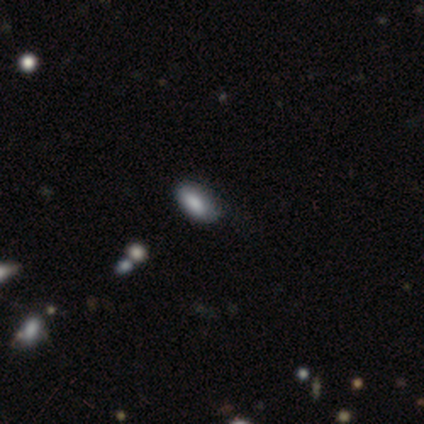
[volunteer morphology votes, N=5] Smooth or featured?
  - smooth: 100% *
  - featured or disk: 0%
  - star or artifact: 0%
How rounded?
  - in between: 80% *
  - round: 20%
  - cigar-shaped: 0%
Merging?
  - none: 100% *
  - minor disturbance: 0%
  - major disturbance: 0%
  - merger: 0%